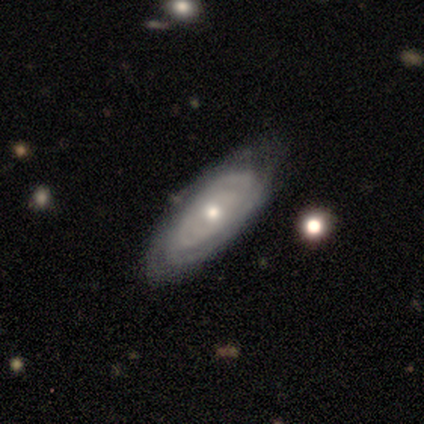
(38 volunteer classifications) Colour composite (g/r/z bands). It shows a featured or disk galaxy (79%) with no bar (84%), tight (73%) spiral arms (88%) and a moderate central bulge (52%). Merging: none (68%).